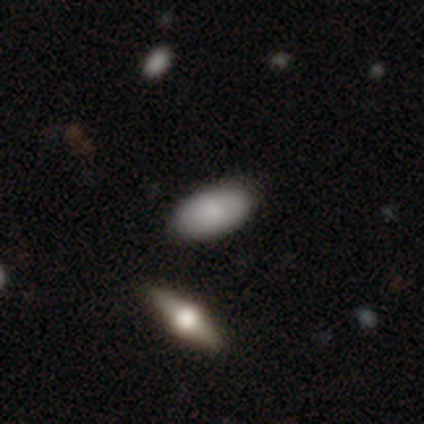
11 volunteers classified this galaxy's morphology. Q: Smooth or featured?
A: smooth (91%); runner-up: featured or disk (9%)
Q: How rounded?
A: in between (100%)
Q: Merging?
A: none (82%); runner-up: minor disturbance (18%)